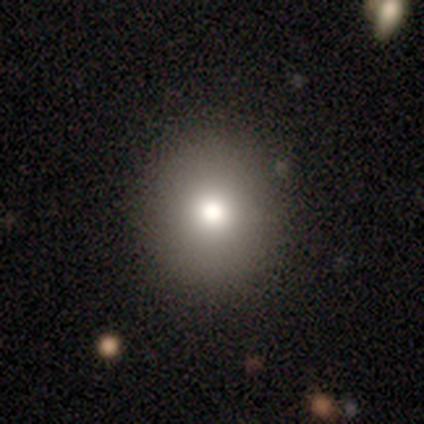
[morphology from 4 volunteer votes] Q: Smooth or featured?
A: smooth (100%)
Q: How rounded?
A: round (75%); runner-up: in between (25%)
Q: Merging?
A: none (75%); runner-up: minor disturbance (25%)